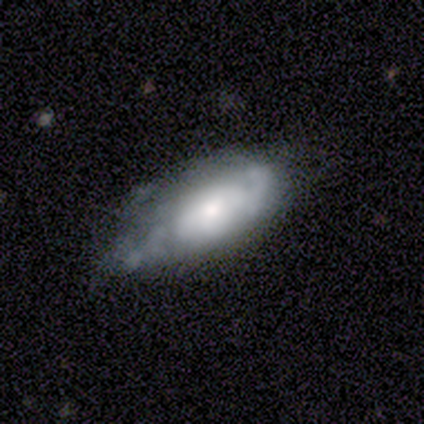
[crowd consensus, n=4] featured or disk 75%, smooth 25%, star or artifact 0%. Down the decision tree: edge-on disk — no (100%); bar — no (100%); spiral arms — yes (67%); spiral arm count — can't tell (100%); spiral winding — medium (100%); bulge size — moderate (100%); merging — none (50%).